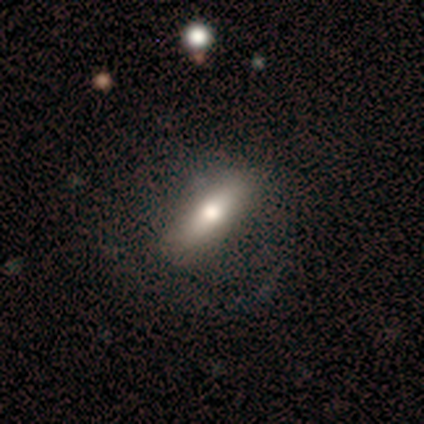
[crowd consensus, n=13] This is possibly a smooth galaxy (54%). How rounded: likely cigar-shaped (71%). Merging: likely none (62%).